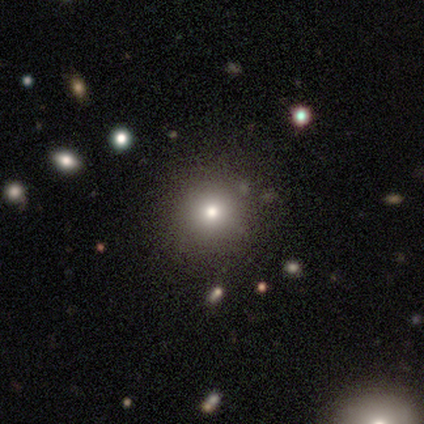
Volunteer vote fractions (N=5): Smooth or featured? 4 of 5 (80%) said smooth. How rounded? 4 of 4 (100%) said round. Merging? 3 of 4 (75%) said none.